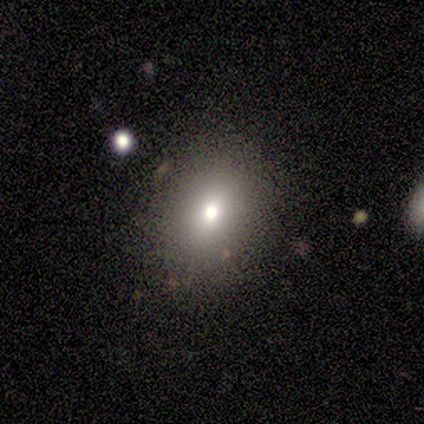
smooth-or-featured: smooth: 75% | star or artifact: 25% | featured or disk: 0%
  how-rounded: in between: 67% | round: 33% | cigar-shaped: 0%
  merging: none: 100% | minor disturbance: 0% | major disturbance: 0% | merger: 0%